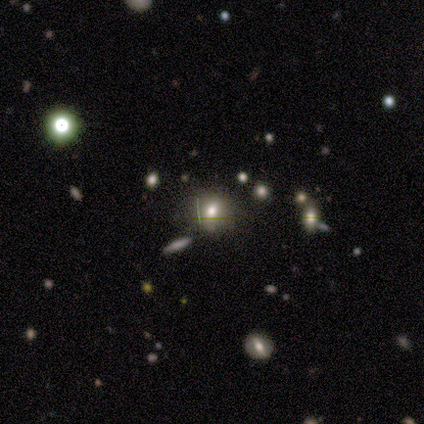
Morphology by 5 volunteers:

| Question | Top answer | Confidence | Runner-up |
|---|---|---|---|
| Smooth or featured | smooth | 100% | — |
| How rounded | round | 80% | in between (20%) |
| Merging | none | 60% | minor disturbance (40%) |